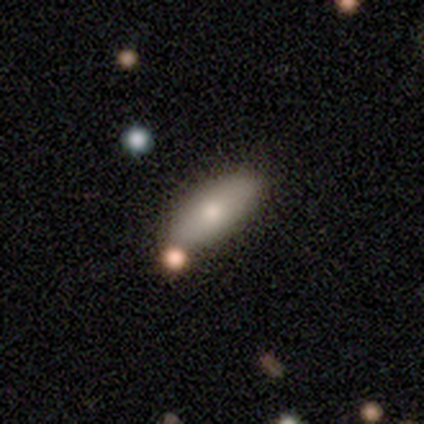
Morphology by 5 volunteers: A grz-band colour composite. It shows a smooth galaxy with no disk features (80%) that is in between round and cigar-shaped (75%). Merging: none (100%).